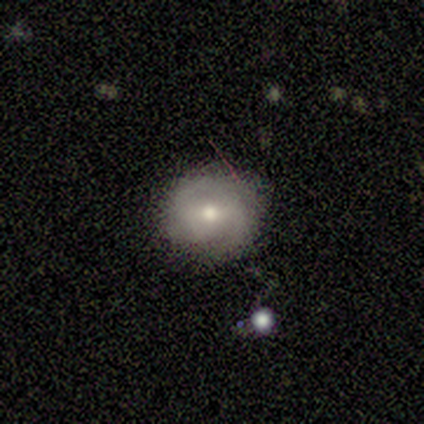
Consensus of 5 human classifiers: This appears to be a featured or disk galaxy (80%) with a weak bar (75%), 2 (75%) tight (50%) spiral arms (100%) and a moderate central bulge (100%). Merging: none (60%).